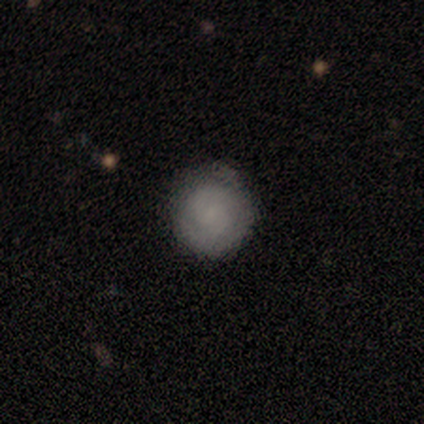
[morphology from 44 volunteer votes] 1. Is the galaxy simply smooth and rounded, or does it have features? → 55% smooth, 41% featured or disk, 5% star or artifact.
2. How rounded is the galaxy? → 96% round, 4% in between, 0% cigar-shaped.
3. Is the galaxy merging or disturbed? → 74% none, 24% minor disturbance, 2% merger, 0% major disturbance.